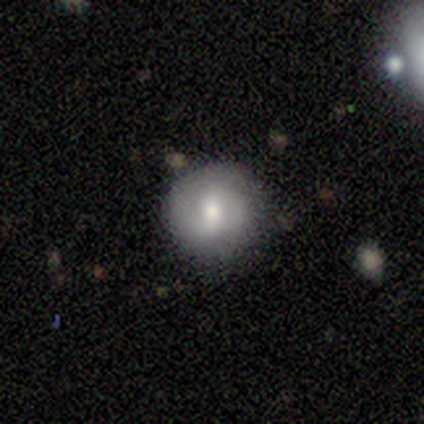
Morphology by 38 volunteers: Smooth or featured? 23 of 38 (61%) said featured or disk. Edge-on disk? 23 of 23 (100%) said no. Bar? 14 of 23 (61%) said weak. Spiral arms? 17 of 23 (74%) said yes. Spiral winding? 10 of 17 (59%) said tight. Spiral arm count? 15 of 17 (88%) said 2. Bulge size? 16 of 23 (70%) said moderate. Merging? 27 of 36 (75%) said none.